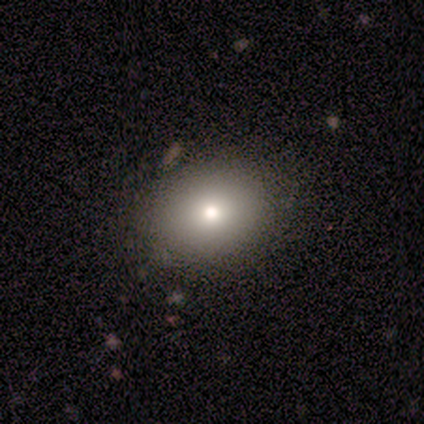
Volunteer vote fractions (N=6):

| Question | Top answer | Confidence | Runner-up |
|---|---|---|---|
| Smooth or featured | smooth | 67% | featured or disk (17%) |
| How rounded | round | 50% | tied: in between (50%) |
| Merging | none | 80% | merger (20%) |